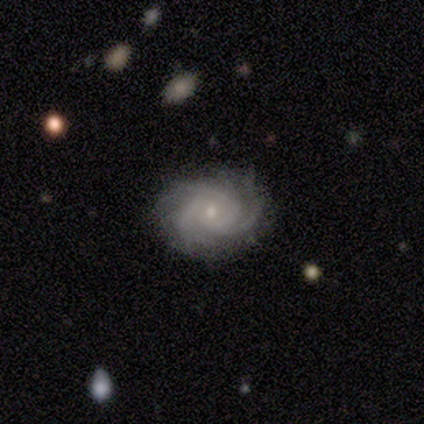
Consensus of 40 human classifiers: This appears to be a featured or disk galaxy (80%) with no bar (73%), 3 (50%) tight (60%) spiral arms (100%) and a small central bulge (73%). Merging: none (92%).